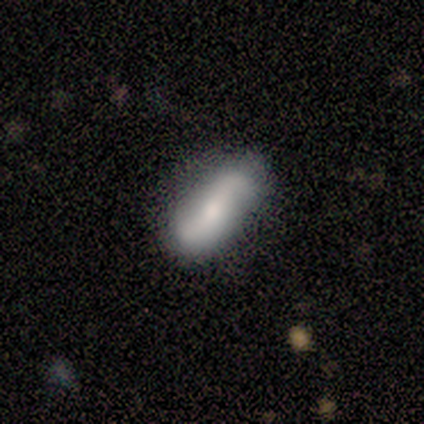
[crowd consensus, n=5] featured or disk 100%, smooth 0%, star or artifact 0%. Down the decision tree: edge-on disk — no (100%); bar — weak (40%, tied with no); spiral arms — yes (100%); spiral arm count — 2 (100%); spiral winding — loose (100%); bulge size — moderate (40%, tied with small); merging — none (100%).